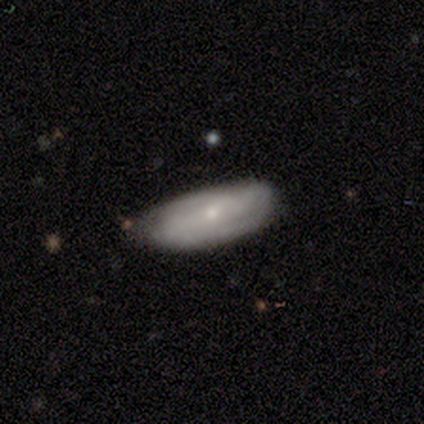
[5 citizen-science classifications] Smooth or featured?
  - smooth: 80% *
  - featured or disk: 20%
  - star or artifact: 0%
How rounded?
  - in between: 100% *
  - round: 0%
  - cigar-shaped: 0%
Merging?
  - none: 80% *
  - minor disturbance: 20%
  - major disturbance: 0%
  - merger: 0%